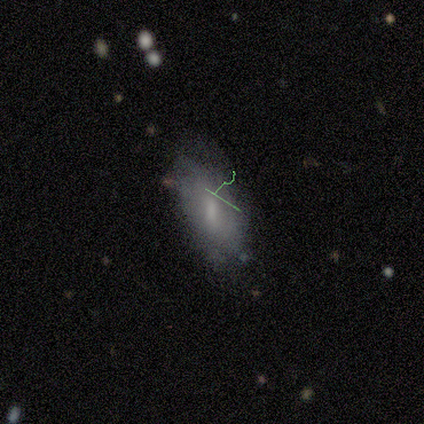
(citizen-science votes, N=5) This is likely a star or artifact rather than a galaxy (60%).